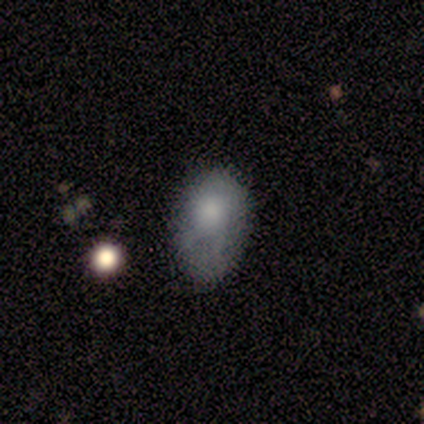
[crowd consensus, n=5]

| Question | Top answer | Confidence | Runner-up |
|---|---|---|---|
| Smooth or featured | smooth | 80% | featured or disk (20%) |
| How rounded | in between | 75% | cigar-shaped (25%) |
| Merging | minor disturbance | 60% | none (40%) |